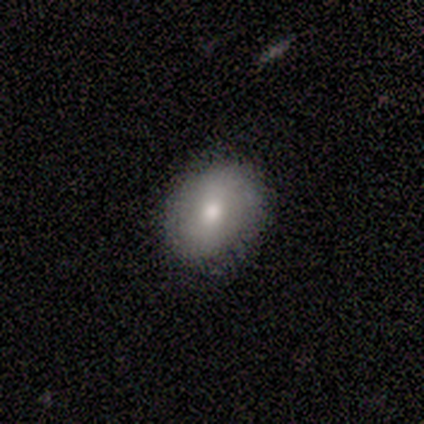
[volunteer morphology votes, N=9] Smooth or featured: smooth — 78% (featured or disk — 22%)
How rounded: in between — 57% (round — 43%)
Merging: none — 89% (minor disturbance — 11%)